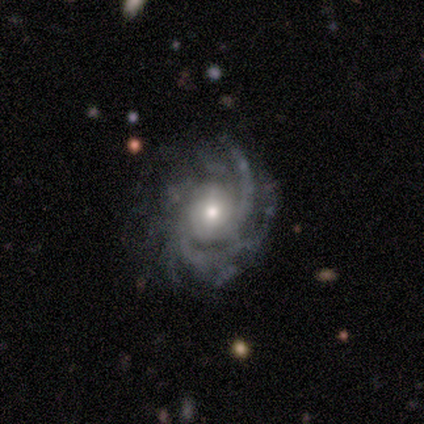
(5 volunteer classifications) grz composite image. It shows a featured or disk galaxy (100%) with no bar (80%), 2 (60%) tight (60%) spiral arms (100%) and a small central bulge (60%). Merging: none (80%).